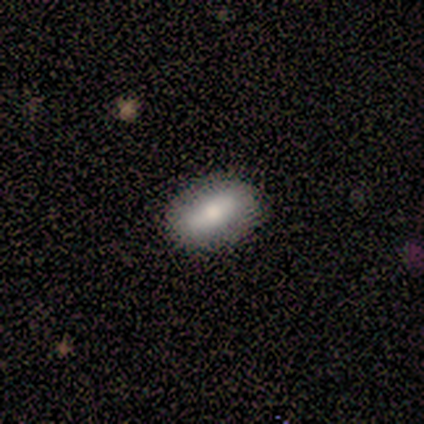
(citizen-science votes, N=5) Q: Smooth or featured?
A: smooth (60%); runner-up: featured or disk (40%)
Q: How rounded?
A: in between (100%)
Q: Merging?
A: none (80%); runner-up: minor disturbance (20%)